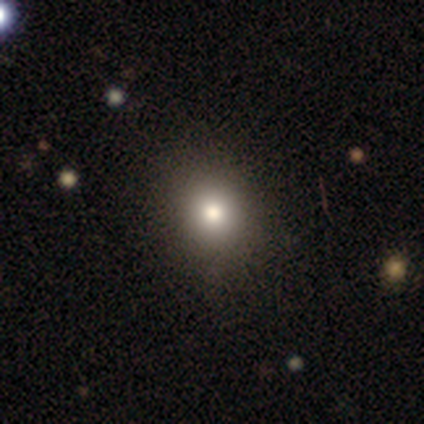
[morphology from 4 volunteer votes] smooth 100%, featured or disk 0%, star or artifact 0%. Down the decision tree: how rounded — round (100%); merging — none (100%).